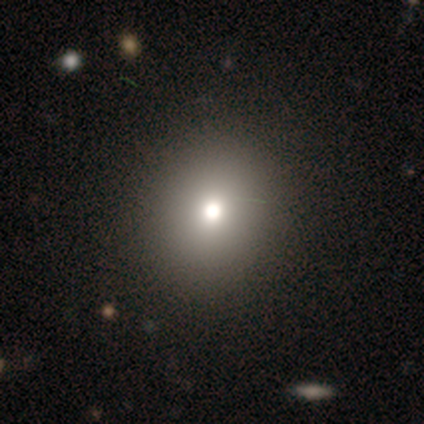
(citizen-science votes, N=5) Smooth or featured: smooth — 60% (star or artifact — 40%)
How rounded: round — 100%
Merging: none — 100%